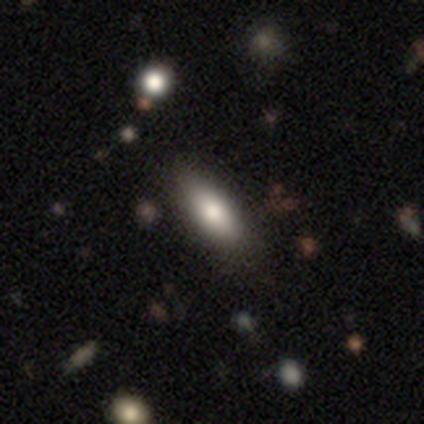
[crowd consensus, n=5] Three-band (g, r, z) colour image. It shows a smooth galaxy with no disk features (60%) that is in between round and cigar-shaped (100%). Merging: none (75%).